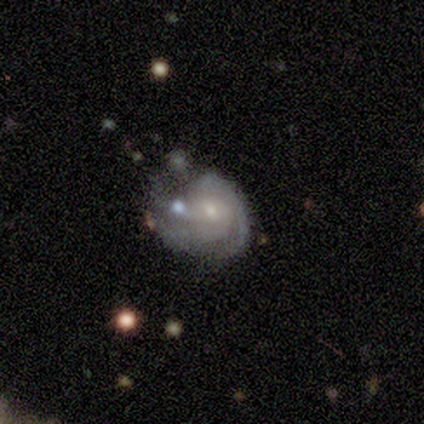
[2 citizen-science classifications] Smooth or featured? featured or disk (100%)
Edge-on disk? no (100%)
Bar? no (100%)
Spiral arms? yes (100%)
Spiral winding? medium (100%)
Spiral arm count? 3 (50%, tied with can't tell)
Bulge size? moderate (50%, tied with small)
Merging? none (50%, tied with merger)